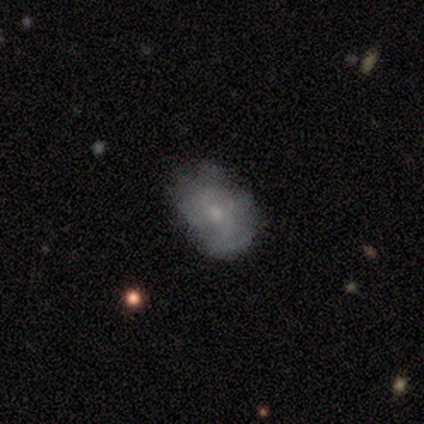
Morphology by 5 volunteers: A smooth galaxy with no disk features (100%) that is in between round and cigar-shaped (100%).

Vote fractions:
- Smooth or featured? smooth: 100% / featured or disk: 0% / star or artifact: 0%
- How rounded? in between: 100% / round: 0% / cigar-shaped: 0%
- Merging? none: 80% / minor disturbance: 20% / major disturbance: 0% / merger: 0%